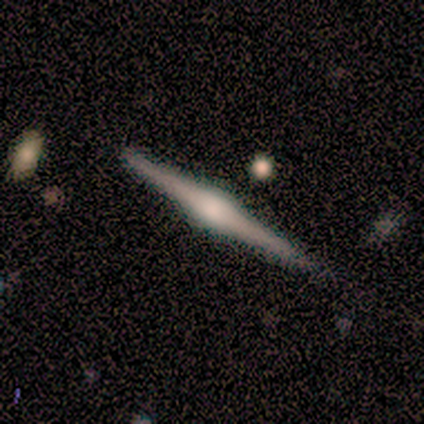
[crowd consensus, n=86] smooth_or_featured: featured or disk (p=0.88) [alt: smooth p=0.08]
disk_edge_on: yes (p=0.99) [alt: no p=0.01]
edge_on_bulge: rounded (p=0.88) [alt: boxy p=0.12]
merging: none (p=0.87) [alt: minor disturbance p=0.12]